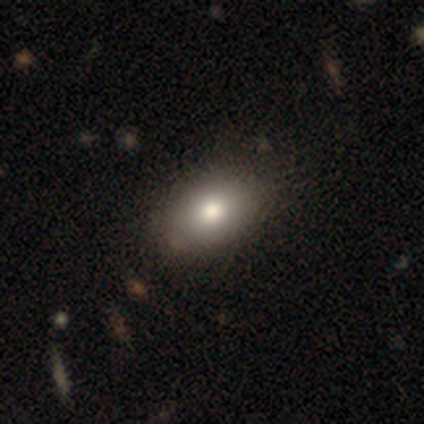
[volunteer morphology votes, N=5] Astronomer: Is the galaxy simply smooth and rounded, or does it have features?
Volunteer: smooth — 80%.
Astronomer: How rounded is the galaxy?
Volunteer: in between — 100%.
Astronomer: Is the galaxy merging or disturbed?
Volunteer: none — 100%.